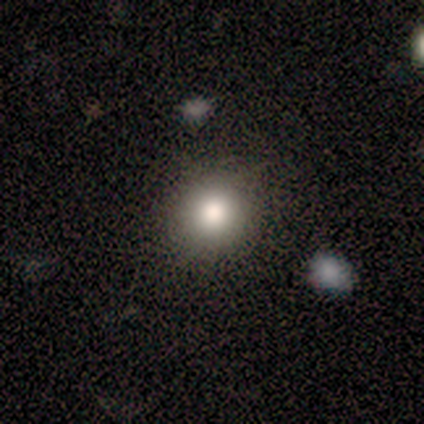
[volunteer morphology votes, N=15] This is clearly a smooth galaxy (80%). How rounded: likely round (75%). Merging: clearly none (92%).